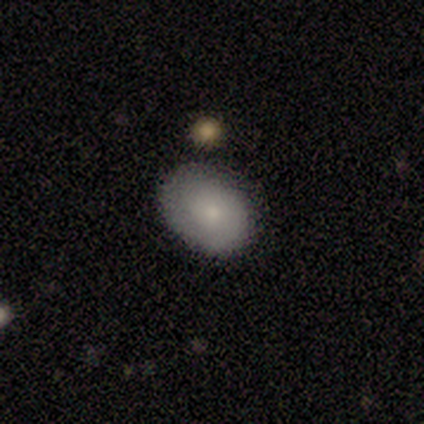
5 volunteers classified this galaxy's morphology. smooth-or-featured: featured or disk: 60% | smooth: 40% | star or artifact: 0%
  disk-edge-on: no: 67% | yes: 33%
    bar: no: 100% | strong: 0% | weak: 0%
    has-spiral-arms: no: 100% | yes: 0%
    bulge-size: small: 100% | dominant: 0% | large: 0% | moderate: 0% | none: 0%
  merging: none: 60% | minor disturbance: 20% | major disturbance: 20% | merger: 0%